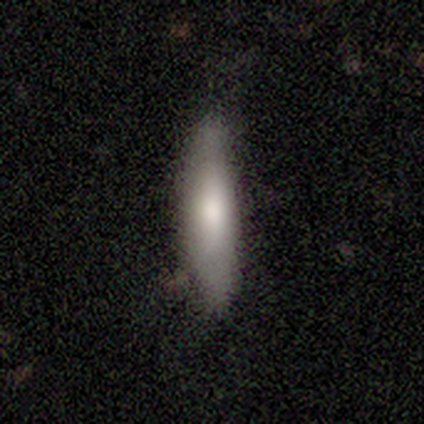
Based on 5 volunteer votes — A smooth galaxy with no disk features (100%) that is cigar-shaped (80%). Merging: minor disturbance (60%).